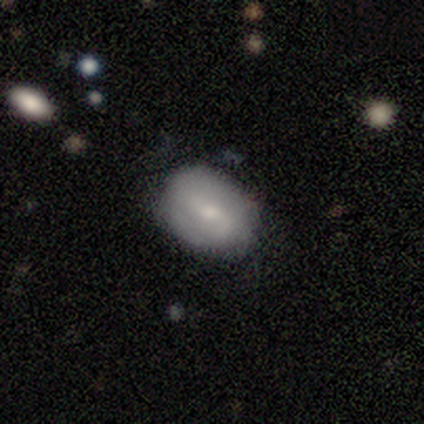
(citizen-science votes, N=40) Morphology: type=smooth (62%); roundness=in between (56%); merging=none (74%).